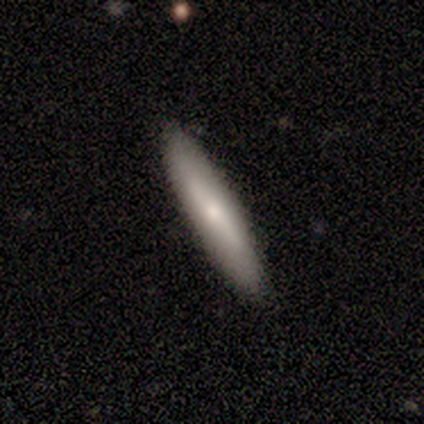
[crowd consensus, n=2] Smooth or featured: smooth — 50% (tied with featured or disk — 50%)
How rounded: cigar-shaped — 100%
Merging: none — 100%